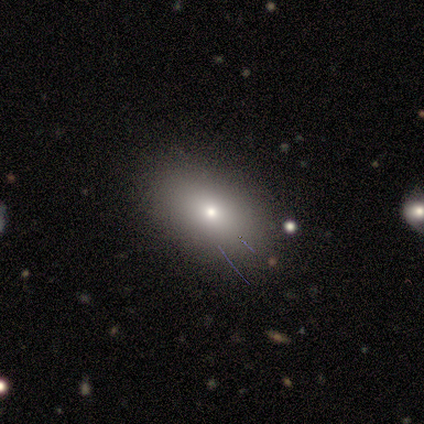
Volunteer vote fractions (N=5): Volunteers were most divided on "how rounded": in between: 60%, round: 40%, cigar-shaped: 0%. More confident: smooth or featured — smooth (100%); merging — none (80%).